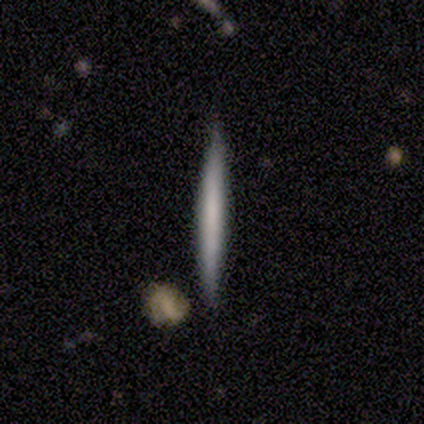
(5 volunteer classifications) smooth_or_featured: smooth (p=0.60) [alt: featured or disk p=0.40]
how_rounded: cigar-shaped (p=1.00)
merging: none (p=1.00)